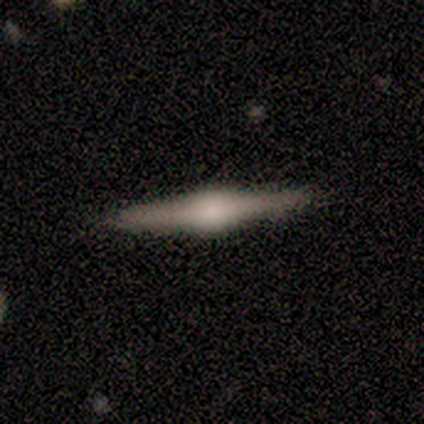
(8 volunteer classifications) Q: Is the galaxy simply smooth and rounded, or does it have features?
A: featured or disk — 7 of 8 (88%).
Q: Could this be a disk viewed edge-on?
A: yes — 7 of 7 (100%).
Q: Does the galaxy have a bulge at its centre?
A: rounded — 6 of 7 (86%).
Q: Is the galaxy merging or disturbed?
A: none — 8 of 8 (100%).